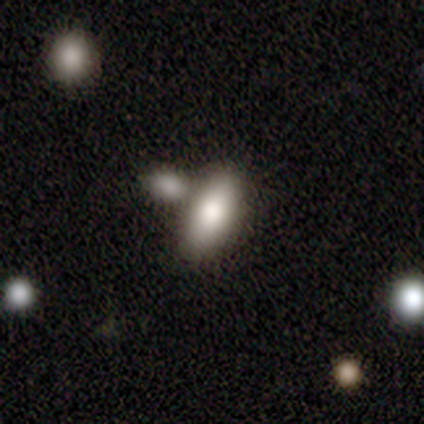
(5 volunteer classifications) Smooth or featured? 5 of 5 (100%) said smooth. How rounded? 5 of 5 (100%) said in between. Merging? 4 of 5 (80%) said merger.